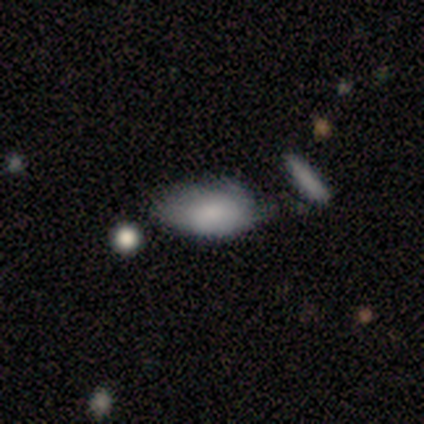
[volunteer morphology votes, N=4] Overall: smooth (100%). How rounded: in between (100%). Merging: minor disturbance (50%; none 25%).